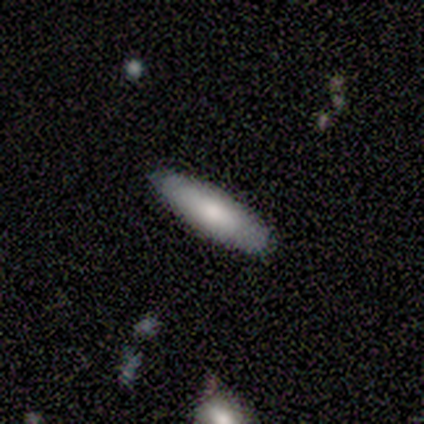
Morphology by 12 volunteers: smooth 67%, featured or disk 33%, star or artifact 0%. Down the decision tree: how rounded — cigar-shaped (62%); merging — none (100%).